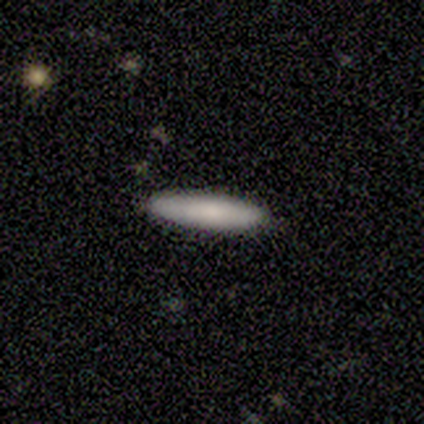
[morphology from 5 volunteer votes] Smooth or featured: smooth — 80% (featured or disk — 20%)
How rounded: cigar-shaped — 100%
Merging: none — 100%